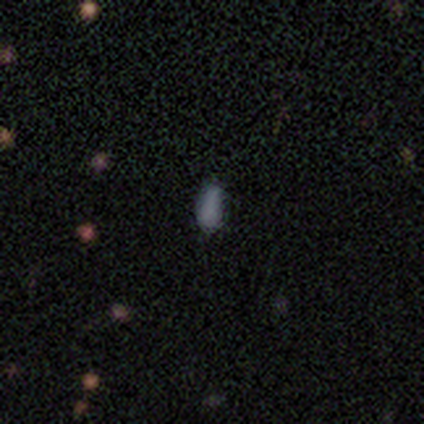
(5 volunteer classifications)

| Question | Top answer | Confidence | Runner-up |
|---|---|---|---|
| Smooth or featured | smooth | 100% | — |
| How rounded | in between | 60% | cigar-shaped (40%) |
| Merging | none | 40% | tied: minor disturbance (40%) |